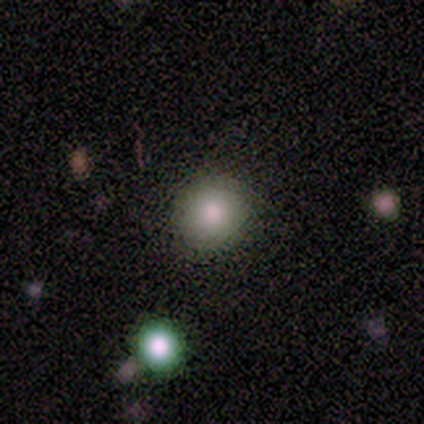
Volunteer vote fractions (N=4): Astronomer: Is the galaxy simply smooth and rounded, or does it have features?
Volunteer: smooth — 100%.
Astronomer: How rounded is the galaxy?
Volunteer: round — 100%.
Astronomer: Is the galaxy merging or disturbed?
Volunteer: none — 100%.